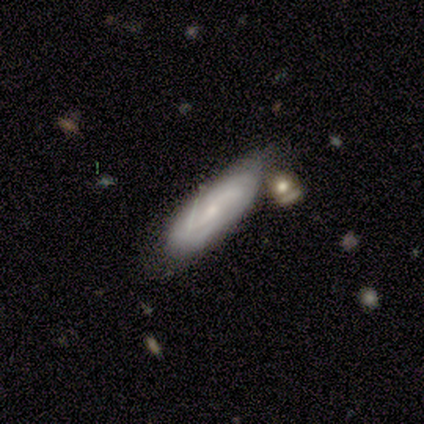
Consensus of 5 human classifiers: Overall: smooth (40%, tied with featured or disk). How rounded: in between (100%). Merging: none (50%, tied with minor disturbance).